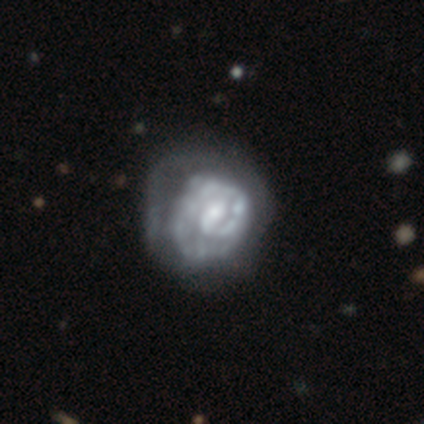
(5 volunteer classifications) This is clearly a featured or disk galaxy (100%). It is clearly not viewed edge-on (100%). Bar: clearly no (80%). Spiral arm pattern: likely yes (60%). Spiral arm count: marginally 1 (33%, tied with 2 and can't tell). Spiral winding: likely tight (67%). Central bulge: clearly small (100%). Merging: marginally minor disturbance (40%, tied with major disturbance).